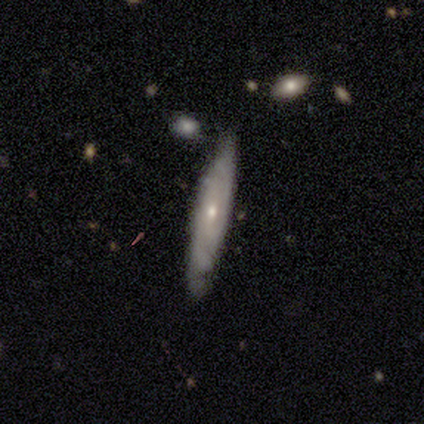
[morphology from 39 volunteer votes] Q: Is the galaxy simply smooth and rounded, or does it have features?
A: featured or disk — 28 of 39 (72%).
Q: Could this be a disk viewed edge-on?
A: no — 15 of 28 (54%).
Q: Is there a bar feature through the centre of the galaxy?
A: no — 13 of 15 (87%).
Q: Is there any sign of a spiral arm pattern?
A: yes — 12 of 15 (80%).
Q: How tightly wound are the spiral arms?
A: tight — 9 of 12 (75%).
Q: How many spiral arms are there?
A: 2 — 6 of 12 (50%).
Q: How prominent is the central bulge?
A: small — 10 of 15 (67%).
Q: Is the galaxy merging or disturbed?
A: none — 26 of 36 (72%).